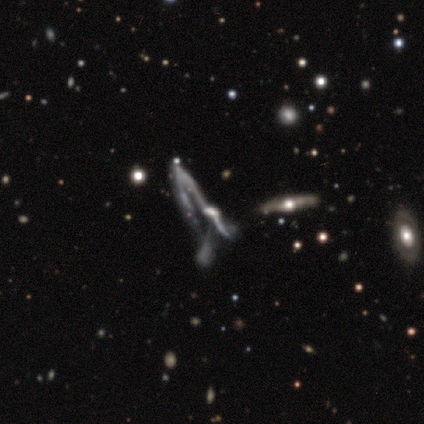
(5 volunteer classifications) featured or disk 100%, smooth 0%, star or artifact 0%. Down the decision tree: edge-on disk — no (80%); bar — strong (50%, tied with no); spiral arms — no (75%); bulge size — moderate (75%); merging — major disturbance (40%, tied with merger).